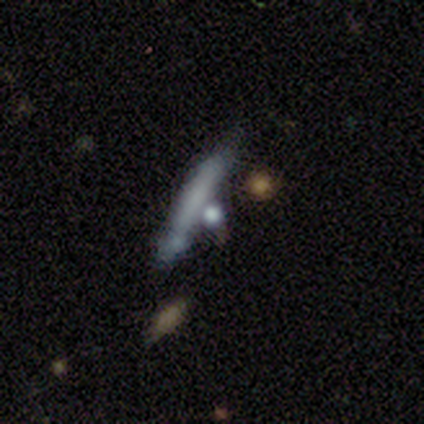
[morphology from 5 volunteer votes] Smooth or featured? smooth (40%, tied with featured or disk)
How rounded? cigar-shaped (100%)
Merging? none (100%)